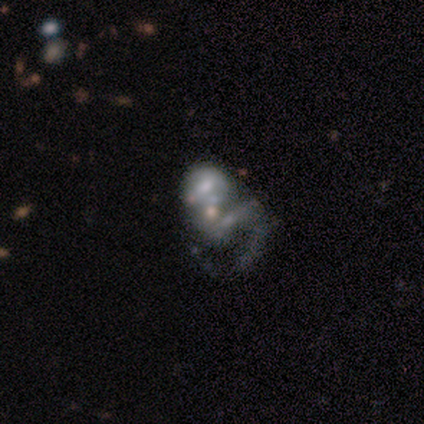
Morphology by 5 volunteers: smooth-or-featured: featured or disk: 80% | smooth: 20% | star or artifact: 0%
  disk-edge-on: no: 100% | yes: 0%
    bar: no: 75% | weak: 25% | strong: 0%
    has-spiral-arms: no: 75% | yes: 25%
    bulge-size: small: 75% | moderate: 25% | dominant: 0% | large: 0% | none: 0%
  merging: merger: 60% | none: 20% | major disturbance: 20% | minor disturbance: 0%